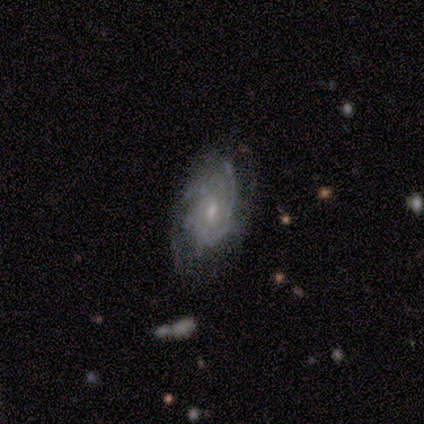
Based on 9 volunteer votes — smooth_or_featured: featured or disk (p=0.89) [alt: smooth p=0.11]
disk_edge_on: no (p=0.88) [alt: yes p=0.12]
bar: no (p=1.00)
has_spiral_arms: yes (p=1.00)
spiral_winding: tight (p=0.86) [alt: medium p=0.14]
spiral_arm_count: can't tell (p=1.00)
bulge_size: small (p=0.71) [alt: moderate p=0.29]
merging: none (p=1.00)